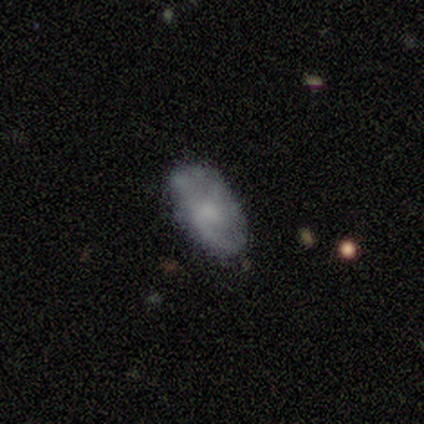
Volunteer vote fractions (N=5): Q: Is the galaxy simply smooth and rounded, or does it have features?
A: featured or disk — 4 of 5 (80%).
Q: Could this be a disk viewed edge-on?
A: no — 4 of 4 (100%).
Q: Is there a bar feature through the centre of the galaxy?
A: no — 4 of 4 (100%).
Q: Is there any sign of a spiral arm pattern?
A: no — 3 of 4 (75%).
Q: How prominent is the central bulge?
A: small — 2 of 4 (50%, tied with none).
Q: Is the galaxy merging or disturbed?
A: none — 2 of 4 (50%).